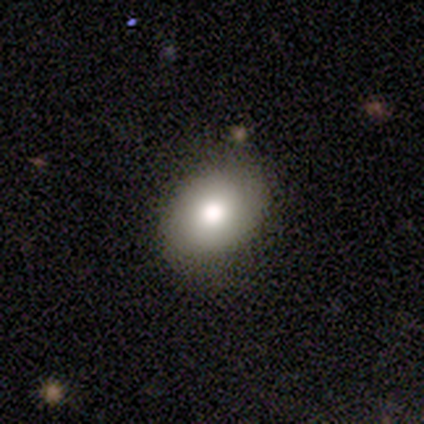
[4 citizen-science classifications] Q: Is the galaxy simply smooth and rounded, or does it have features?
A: smooth — 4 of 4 (100%).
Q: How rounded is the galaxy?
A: in between — 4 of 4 (100%).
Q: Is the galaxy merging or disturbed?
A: none — 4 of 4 (100%).